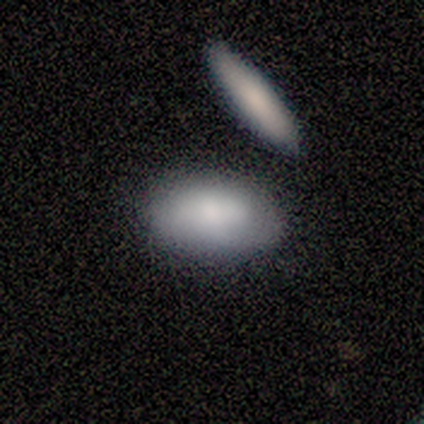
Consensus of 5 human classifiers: This appears to be a smooth galaxy with no disk features (100%) that is in between round and cigar-shaped (80%). Merging: none (60%).